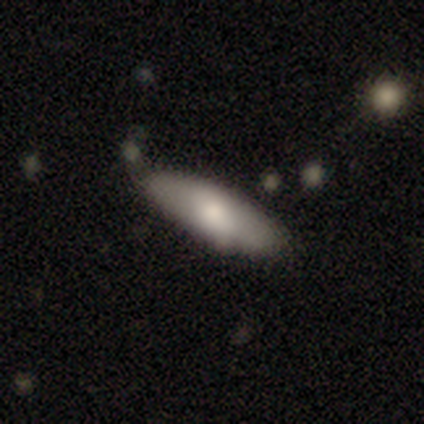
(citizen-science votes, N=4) A smooth galaxy with no disk features (100%) that is in between round and cigar-shaped (75%).

Vote fractions:
- Smooth or featured? smooth: 100% / featured or disk: 0% / star or artifact: 0%
- How rounded? in between: 75% / cigar-shaped: 25% / round: 0%
- Merging? none: 75% / minor disturbance: 25% / major disturbance: 0% / merger: 0%